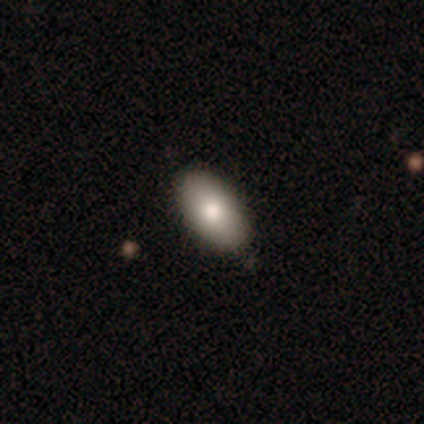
Smooth or featured? smooth (85%)
How rounded? in between (94%)
Merging? none (86%)